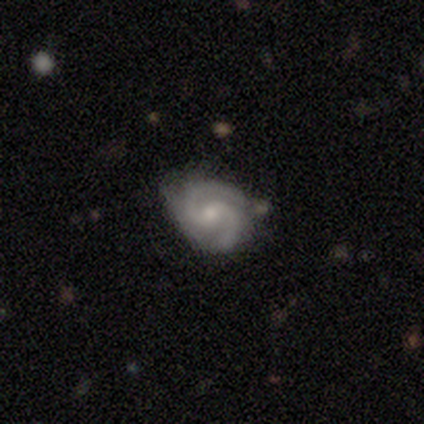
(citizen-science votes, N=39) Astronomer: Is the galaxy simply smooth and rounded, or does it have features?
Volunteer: featured or disk — 90%.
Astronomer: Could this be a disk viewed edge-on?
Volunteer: no — 100%.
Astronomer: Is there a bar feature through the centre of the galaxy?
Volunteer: no — 57% (runner-up: weak, 40%).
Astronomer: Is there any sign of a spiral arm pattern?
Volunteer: yes — 100%.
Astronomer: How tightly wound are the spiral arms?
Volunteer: tight — 43%, tied with medium at 43%.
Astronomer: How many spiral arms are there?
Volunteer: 2 — 97%.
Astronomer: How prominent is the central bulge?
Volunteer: small — 57%.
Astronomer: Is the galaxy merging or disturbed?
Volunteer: none — 72%.